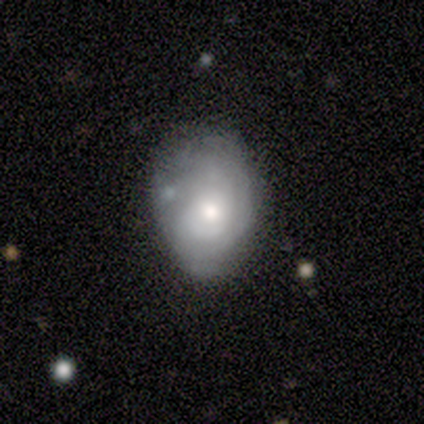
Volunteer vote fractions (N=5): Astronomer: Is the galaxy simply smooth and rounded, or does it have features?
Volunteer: featured or disk — 60% (runner-up: smooth, 40%).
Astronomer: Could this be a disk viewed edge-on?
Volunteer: no — 100%.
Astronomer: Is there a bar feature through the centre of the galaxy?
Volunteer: no — 67%.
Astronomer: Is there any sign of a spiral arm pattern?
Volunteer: yes — 67%.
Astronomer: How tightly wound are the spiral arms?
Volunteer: medium — 50%, tied with loose at 50%.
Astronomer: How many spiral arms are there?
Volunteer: can't tell — 100%.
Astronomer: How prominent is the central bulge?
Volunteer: small — 67%.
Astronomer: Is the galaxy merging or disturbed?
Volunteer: none — 80%.